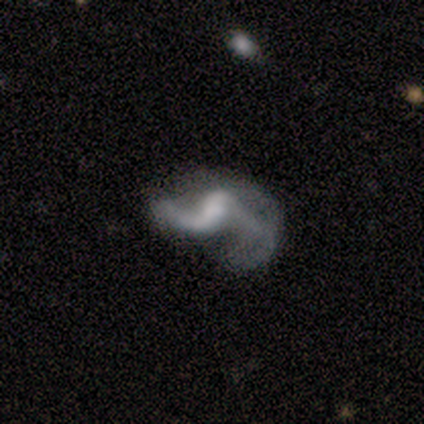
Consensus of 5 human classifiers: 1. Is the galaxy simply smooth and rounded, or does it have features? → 100% featured or disk, 0% smooth, 0% star or artifact.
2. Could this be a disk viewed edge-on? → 100% no, 0% yes.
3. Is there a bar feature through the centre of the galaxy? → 40% weak (tied), 40% no (tied), 20% strong.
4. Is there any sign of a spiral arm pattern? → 80% yes, 20% no.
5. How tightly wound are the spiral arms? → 75% loose, 25% medium, 0% tight.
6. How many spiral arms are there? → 50% 1 (tied), 50% 2 (tied), 0% 3, 0% 4, 0% more than 4, 0% can't tell.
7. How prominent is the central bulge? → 60% moderate, 40% none, 0% dominant, 0% large, 0% small.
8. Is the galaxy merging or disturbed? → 40% none (tied), 40% major disturbance (tied), 20% merger, 0% minor disturbance.